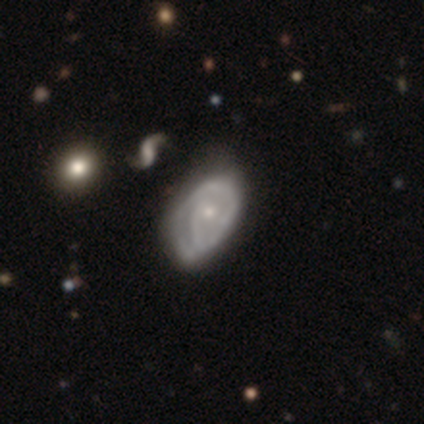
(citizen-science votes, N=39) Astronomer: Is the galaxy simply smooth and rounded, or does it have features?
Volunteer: featured or disk — 87%.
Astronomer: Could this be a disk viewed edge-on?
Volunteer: no — 94%.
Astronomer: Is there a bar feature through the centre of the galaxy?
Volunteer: no — 81%.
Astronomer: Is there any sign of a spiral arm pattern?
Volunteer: yes — 75%.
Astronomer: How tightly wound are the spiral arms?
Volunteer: tight — 58%.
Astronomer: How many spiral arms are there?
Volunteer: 1 — 33% (runner-up: 2, 29%).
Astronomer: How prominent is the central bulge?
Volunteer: small — 69%.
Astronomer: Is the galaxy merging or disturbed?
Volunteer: none — 22% (runner-up: major disturbance, 16%).